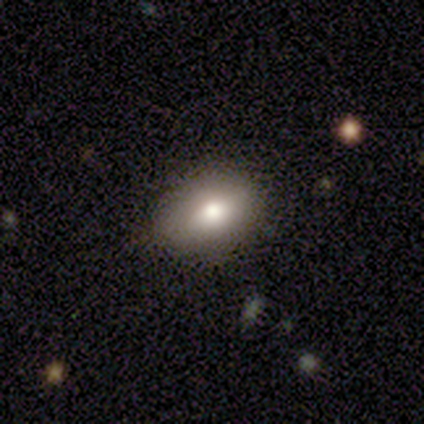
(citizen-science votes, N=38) Smooth or featured: smooth — 76% (featured or disk — 16%)
How rounded: in between — 100%
Merging: none — 83% (minor disturbance — 17%)